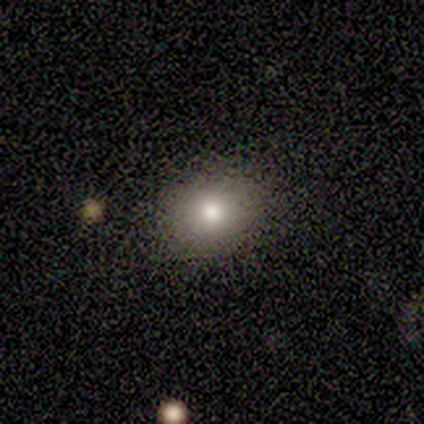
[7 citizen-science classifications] Q: Smooth or featured?
A: smooth (100%)
Q: How rounded?
A: in between (71%); runner-up: round (29%)
Q: Merging?
A: none (86%); runner-up: minor disturbance (14%)